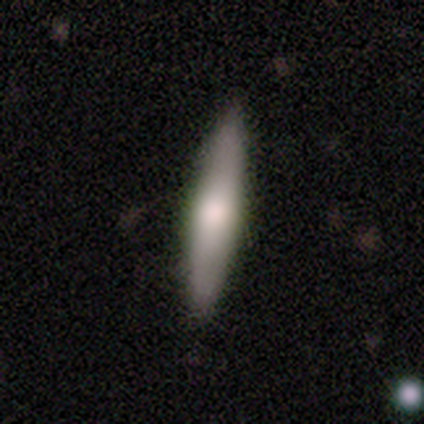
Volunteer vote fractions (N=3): Volunteers were most divided on "how rounded" (2-way tie): in between: 50%, cigar-shaped: 50%, round: 0%. More confident: merging — none (100%); smooth or featured — smooth (67%).